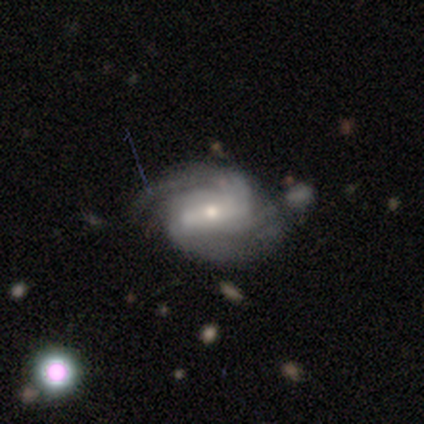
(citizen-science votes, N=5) Volunteers were most divided on "bar": weak: 60%, strong: 40%, no: 0%. More confident: smooth or featured — featured or disk (100%); edge-on disk — no (100%); spiral arms — yes (100%); bulge size — moderate (60%); spiral winding — medium (60%); spiral arm count — 2 (60%); merging — none (60%).